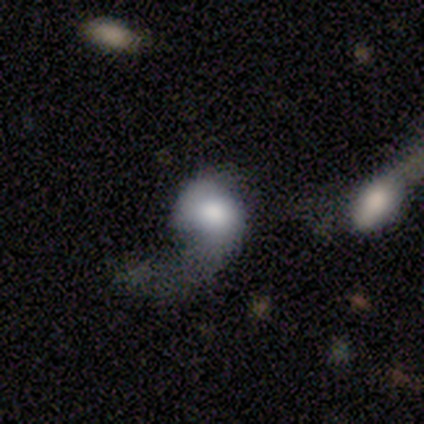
Smooth or featured? 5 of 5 (100%) said featured or disk. Edge-on disk? 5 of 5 (100%) said no. Bar? 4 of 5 (80%) said no. Spiral arms? 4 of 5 (80%) said yes. Spiral winding? 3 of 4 (75%) said loose. Spiral arm count? 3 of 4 (75%) said 1. Bulge size? 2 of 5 (40%) said moderate. Merging? 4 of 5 (80%) said merger.